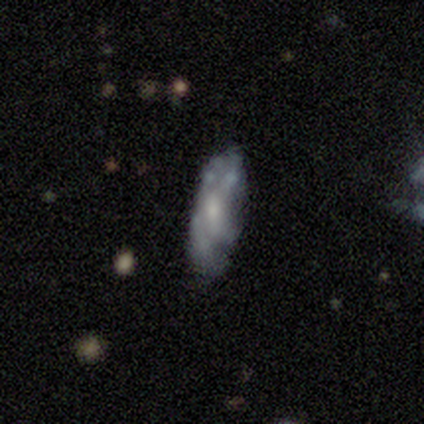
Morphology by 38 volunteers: This appears to be a featured or disk galaxy (58%) with no bar (78%), no spiral arms (67%) and a small central bulge (50%). Merging: none (54%).